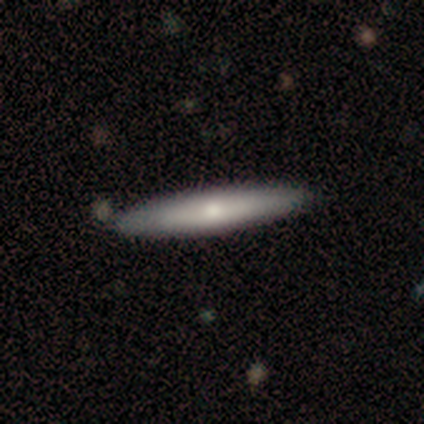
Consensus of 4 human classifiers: A featured or disk galaxy (75%) viewed edge-on (100%) with a rounded central bulge (100%).

Vote fractions:
- Smooth or featured? featured or disk: 75% / smooth: 25% / star or artifact: 0%
- Edge-on disk? yes: 100% / no: 0%
- Edge-on bulge? rounded: 100% / boxy: 0% / none: 0%
- Merging? none: 100% / minor disturbance: 0% / major disturbance: 0% / merger: 0%